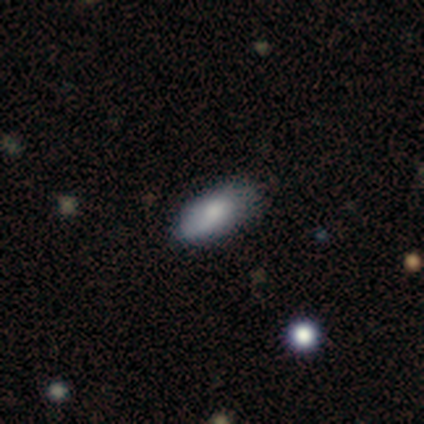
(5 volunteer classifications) Smooth or featured: smooth — 60% (star or artifact — 40%)
How rounded: in between — 100%
Merging: none — 100%